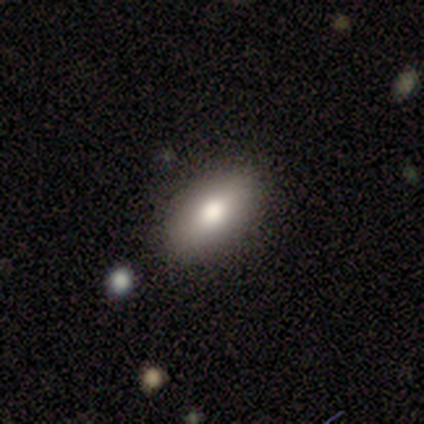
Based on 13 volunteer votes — Overall: smooth (100%). How rounded: in between (92%). Merging: none (85%).